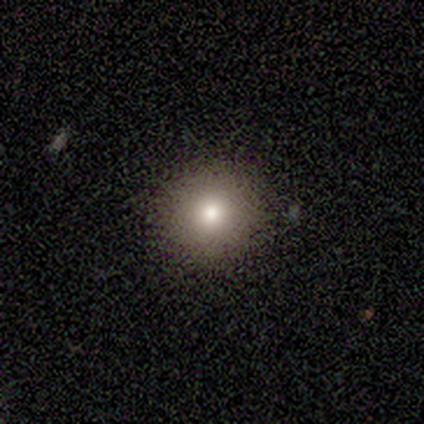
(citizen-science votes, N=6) Smooth or featured?
  - smooth: 100% *
  - featured or disk: 0%
  - star or artifact: 0%
How rounded?
  - round: 100% *
  - in between: 0%
  - cigar-shaped: 0%
Merging?
  - none: 100% *
  - minor disturbance: 0%
  - major disturbance: 0%
  - merger: 0%